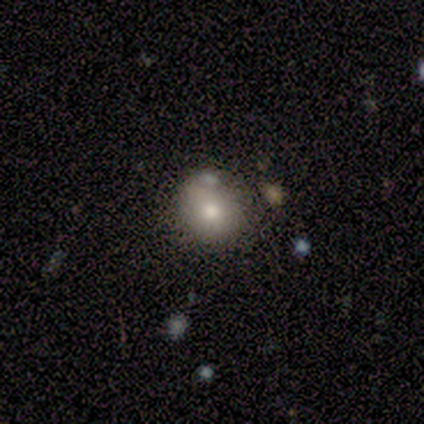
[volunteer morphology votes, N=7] A smooth galaxy with no disk features (100%) that is round (86%).

Vote fractions:
- Smooth or featured? smooth: 100% / featured or disk: 0% / star or artifact: 0%
- How rounded? round: 86% / in between: 14% / cigar-shaped: 0%
- Merging? none: 43% (tied) / minor disturbance: 43% (tied) / merger: 14% / major disturbance: 0%